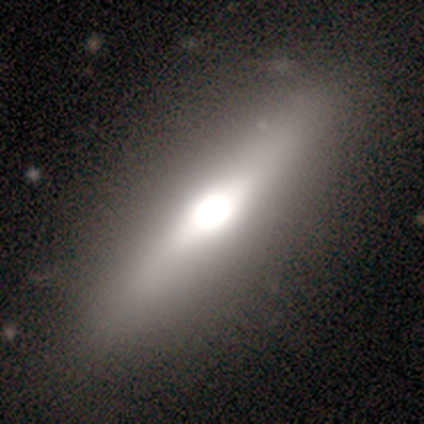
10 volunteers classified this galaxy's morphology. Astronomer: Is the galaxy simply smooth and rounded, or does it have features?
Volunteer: smooth — 80%.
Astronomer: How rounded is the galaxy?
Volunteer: in between — 88%.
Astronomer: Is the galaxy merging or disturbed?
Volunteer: none — 100%.